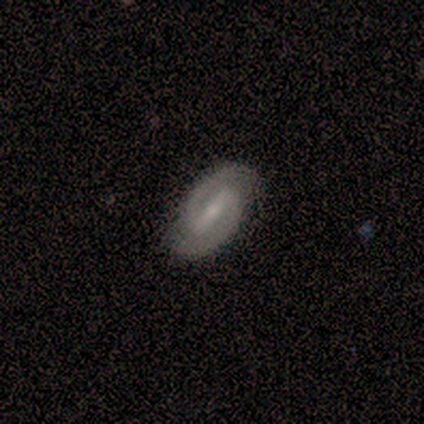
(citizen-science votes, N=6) Smooth or featured?
  - featured or disk: 67% *
  - smooth: 17%
  - star or artifact: 17%
Edge-on disk?
  - no: 100% *
  - yes: 0%
Bar?
  - strong: 100% *
  - weak: 0%
  - no: 0%
Spiral arms?
  - yes: 100% *
  - no: 0%
Spiral winding?
  - tight: 75% *
  - medium: 25%
  - loose: 0%
Spiral arm count?
  - 2: 100% *
  - 1: 0%
  - 3: 0%
  - 4: 0%
  - more than 4: 0%
  - can't tell: 0%
Bulge size?
  - small: 100% *
  - dominant: 0%
  - large: 0%
  - moderate: 0%
  - none: 0%
Merging?
  - none: 80% *
  - major disturbance: 20%
  - minor disturbance: 0%
  - merger: 0%